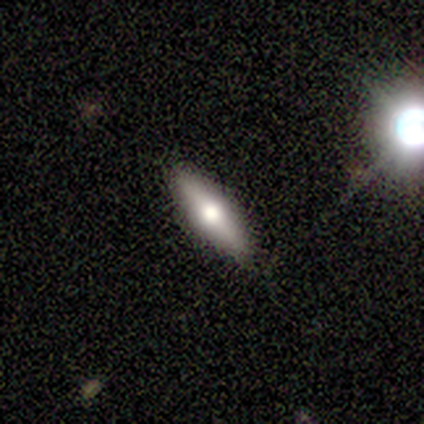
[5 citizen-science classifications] This appears to be a featured or disk galaxy (60%) viewed edge-on (67%) with a rounded central bulge (100%). Merging: none (100%).